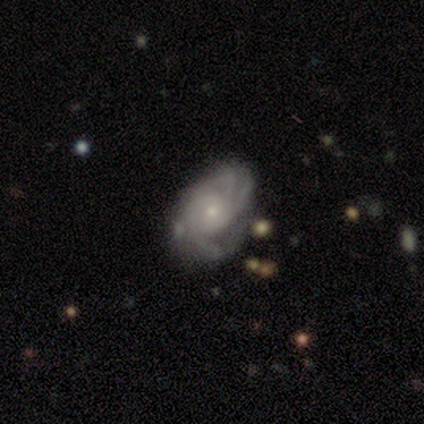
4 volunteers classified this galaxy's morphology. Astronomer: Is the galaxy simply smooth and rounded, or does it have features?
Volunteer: featured or disk — 75%.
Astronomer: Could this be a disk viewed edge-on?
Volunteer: no — 100%.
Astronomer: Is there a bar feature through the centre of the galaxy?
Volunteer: no — 100%.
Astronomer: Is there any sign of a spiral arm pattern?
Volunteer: yes — 100%.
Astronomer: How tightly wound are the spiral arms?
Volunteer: tight — 67%.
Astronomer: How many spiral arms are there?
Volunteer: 3 — 67%.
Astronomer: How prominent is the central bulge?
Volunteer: moderate — 33%, tied with small and none at 33%.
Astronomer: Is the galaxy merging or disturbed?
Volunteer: minor disturbance — 50%.